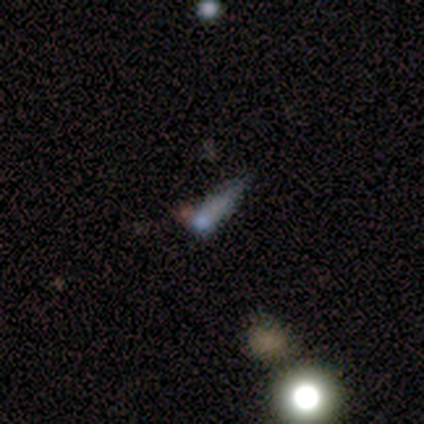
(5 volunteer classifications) A smooth galaxy with no disk features (80%) that is round (50%, tied with in between). Merging: none (25%, tied with minor disturbance, major disturbance and merger).